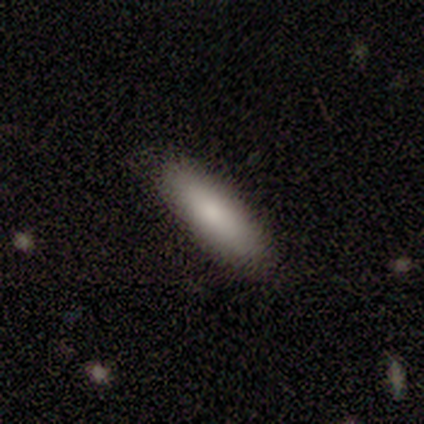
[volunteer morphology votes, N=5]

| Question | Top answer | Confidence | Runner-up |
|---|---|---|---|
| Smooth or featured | smooth | 80% | star or artifact (20%) |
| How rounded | cigar-shaped | 100% | — |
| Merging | none | 100% | — |